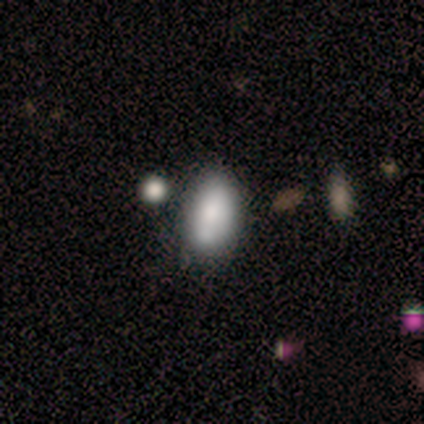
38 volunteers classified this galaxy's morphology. A smooth galaxy with no disk features (82%) that is in between round and cigar-shaped (94%).

Vote fractions:
- Smooth or featured? smooth: 82% / featured or disk: 11% / star or artifact: 8%
- How rounded? in between: 94% / round: 3% / cigar-shaped: 3%
- Merging? none: 60% / minor disturbance: 31% / merger: 9% / major disturbance: 0%